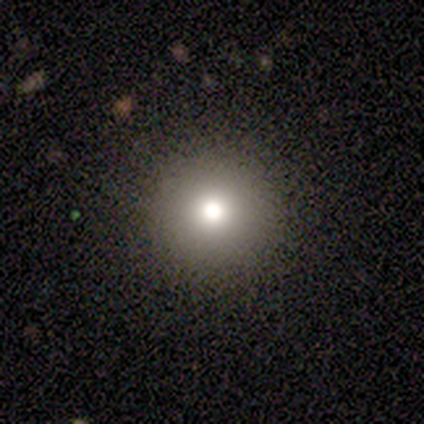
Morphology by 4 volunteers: smooth 50% (tied), star or artifact 50% (tied), featured or disk 0%. Down the decision tree: how rounded — round (100%); merging — none (100%).